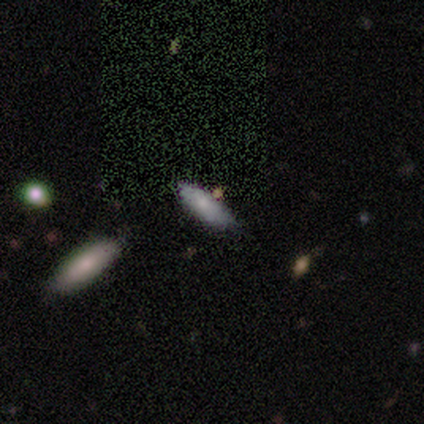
Q: Smooth or featured?
A: smooth (75%); runner-up: featured or disk (25%)
Q: How rounded?
A: in between (67%); runner-up: cigar-shaped (33%)
Q: Merging?
A: none (100%)